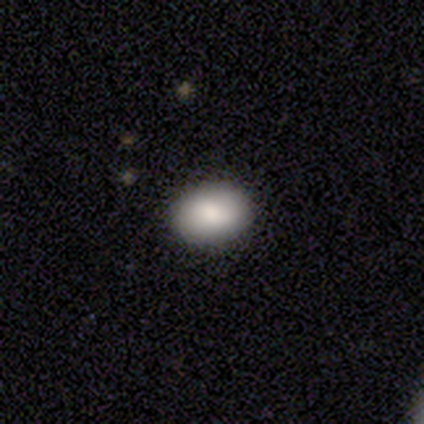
Smooth or featured?
  - smooth: 90% *
  - featured or disk: 8%
  - star or artifact: 3%
How rounded?
  - in between: 74% *
  - round: 20%
  - cigar-shaped: 6%
Merging?
  - none: 79% *
  - minor disturbance: 13%
  - major disturbance: 5%
  - merger: 3%